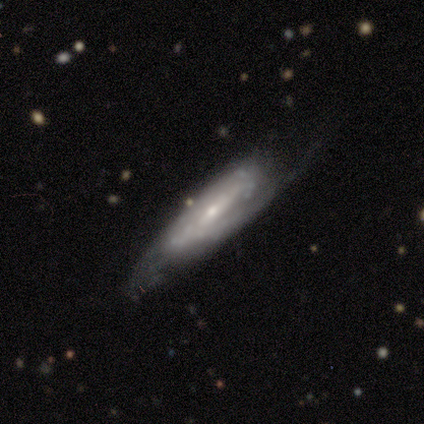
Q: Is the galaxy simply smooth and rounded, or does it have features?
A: featured or disk — 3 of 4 (75%).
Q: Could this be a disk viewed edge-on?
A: no — 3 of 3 (100%).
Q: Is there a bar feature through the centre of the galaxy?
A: no — 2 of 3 (67%).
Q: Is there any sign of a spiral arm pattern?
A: yes — 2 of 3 (67%).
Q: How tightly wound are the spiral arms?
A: medium — 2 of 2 (100%).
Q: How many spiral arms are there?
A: can't tell — 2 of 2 (100%).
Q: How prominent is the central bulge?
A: small — 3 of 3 (100%).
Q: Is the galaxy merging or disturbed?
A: minor disturbance — 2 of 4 (50%, tied with major disturbance).